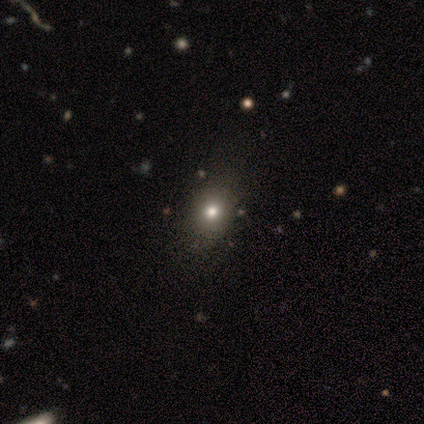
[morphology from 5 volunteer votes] Smooth or featured? 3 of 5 (60%) said smooth. How rounded? 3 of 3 (100%) said round. Merging? 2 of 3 (67%) said none.